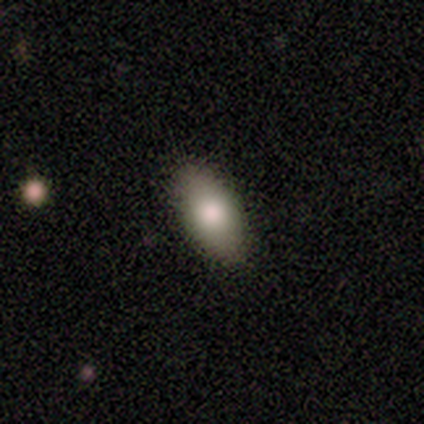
A smooth galaxy with no disk features (82%) that is in between round and cigar-shaped (100%). Merging: none (100%).